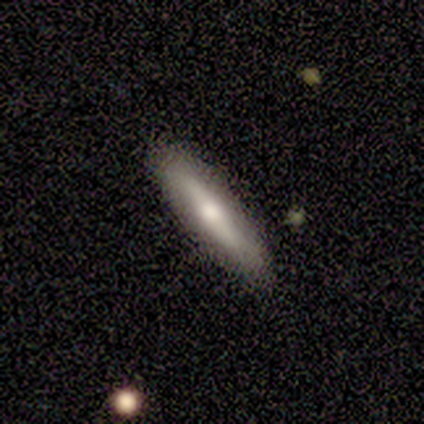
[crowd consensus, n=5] Morphology: type=featured or disk (60%); edge-on=yes (100%); edge-on bulge=rounded (100%); merging=none (80%).